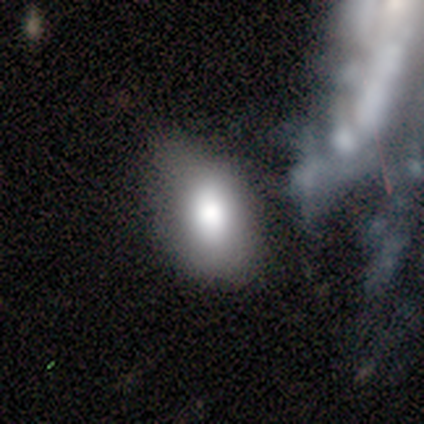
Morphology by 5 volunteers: Smooth or featured? smooth (80%)
How rounded? in between (100%)
Merging? none (80%)